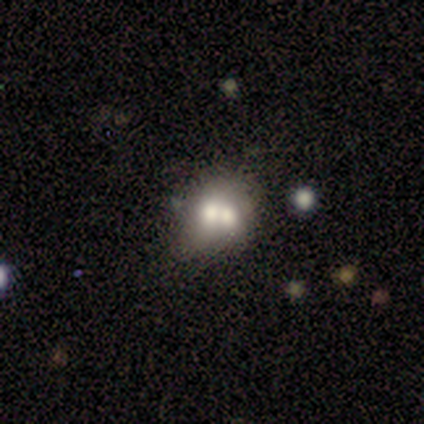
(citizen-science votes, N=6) smooth-or-featured: smooth: 67% | featured or disk: 33% | star or artifact: 0%
  how-rounded: in between: 75% | round: 25% | cigar-shaped: 0%
  merging: merger: 67% | none: 17% | minor disturbance: 17% | major disturbance: 0%